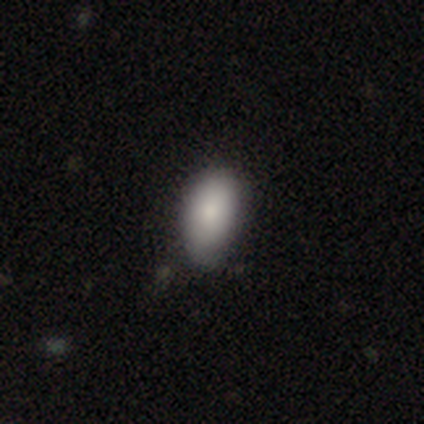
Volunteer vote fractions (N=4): Smooth or featured: smooth — 100%
How rounded: in between — 100%
Merging: none — 75% (major disturbance — 25%)